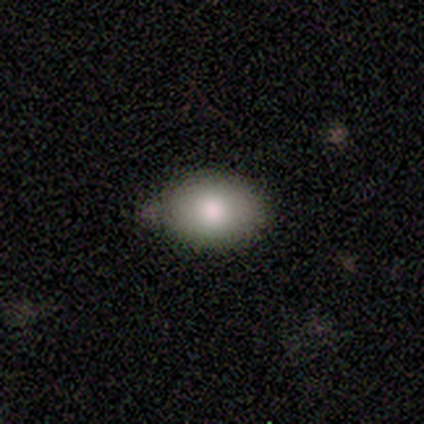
A smooth galaxy with no disk features (100%) that is in between round and cigar-shaped (60%).

Vote fractions:
- Smooth or featured? smooth: 100% / featured or disk: 0% / star or artifact: 0%
- How rounded? in between: 60% / round: 40% / cigar-shaped: 0%
- Merging? none: 60% / minor disturbance: 40% / major disturbance: 0% / merger: 0%